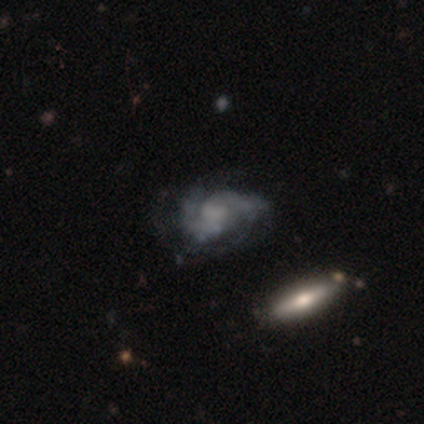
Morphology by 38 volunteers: Smooth or featured?
  - featured or disk: 71% *
  - smooth: 18%
  - star or artifact: 11%
Edge-on disk?
  - no: 93% *
  - yes: 7%
Bar?
  - no: 76% *
  - weak: 20%
  - strong: 4%
Spiral arms?
  - yes: 92% *
  - no: 8%
Spiral winding?
  - tight: 48% *
  - medium: 30%
  - loose: 22%
Spiral arm count?
  - 2: 70% *
  - can't tell: 30%
  - 1: 0%
  - 3: 0%
  - 4: 0%
  - more than 4: 0%
Bulge size?
  - none: 68% *
  - small: 16%
  - large: 8%
  - dominant: 4%
  - moderate: 4%
Merging?
  - none: 50% *
  - minor disturbance: 24%
  - major disturbance: 21%
  - merger: 6%